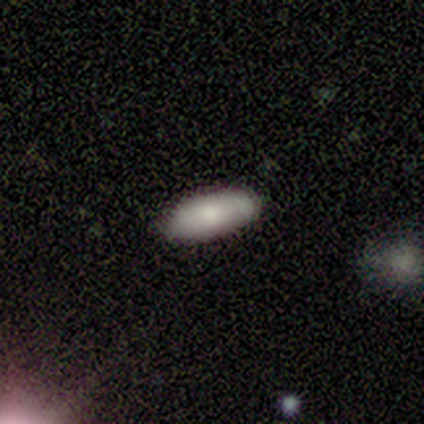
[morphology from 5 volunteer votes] This is clearly a smooth galaxy (80%). How rounded: clearly in between (100%). Merging: clearly none (80%).